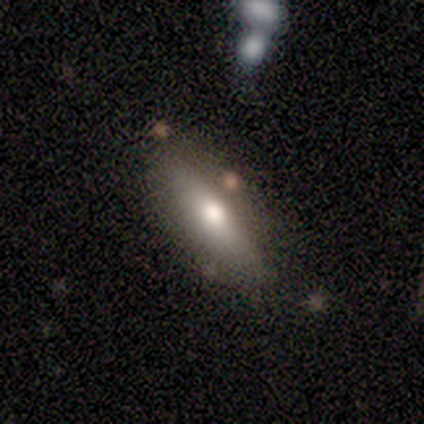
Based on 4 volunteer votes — Smooth or featured? smooth (100%)
How rounded? in between (50%, tied with cigar-shaped)
Merging? none (100%)